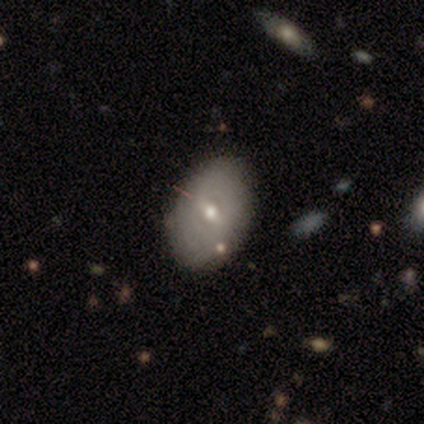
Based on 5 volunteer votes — Volunteers were most divided on "how rounded": in between: 75%, round: 25%, cigar-shaped: 0%. More confident: smooth or featured — smooth (80%); merging — none (80%).